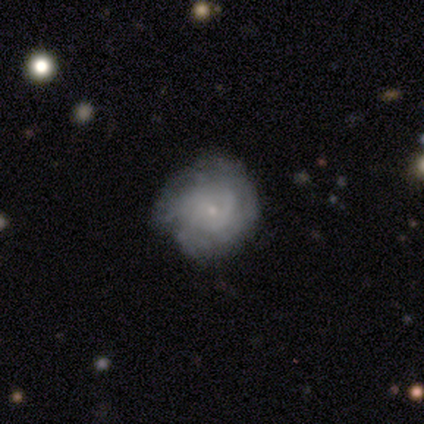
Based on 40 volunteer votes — featured or disk 68%, smooth 20%, star or artifact 12%. Down the decision tree: edge-on disk — no (100%); bar — no (93%); spiral arms — yes (78%); spiral arm count — can't tell (71%); spiral winding — tight (71%); bulge size — small (89%); merging — none (57%).